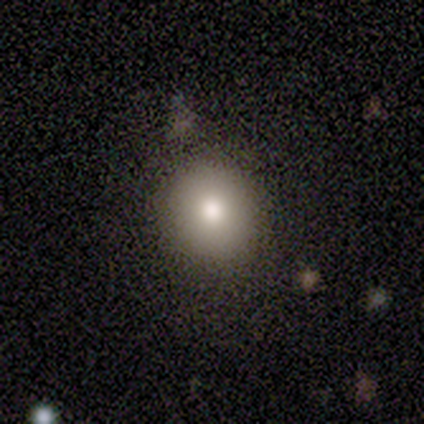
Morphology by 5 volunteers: Volunteers were most divided on "merging": none: 75%, minor disturbance: 25%, major disturbance: 0%, merger: 0%. More confident: how rounded — round (100%); smooth or featured — smooth (80%).